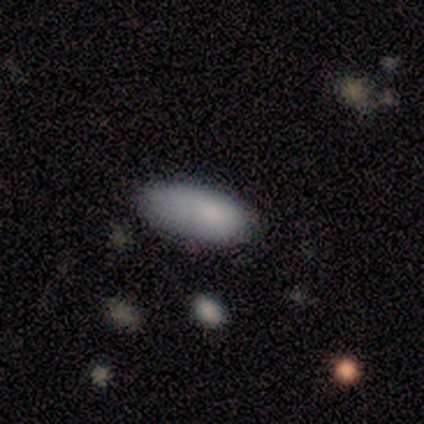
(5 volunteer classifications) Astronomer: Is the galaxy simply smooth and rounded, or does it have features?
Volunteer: smooth — 100%.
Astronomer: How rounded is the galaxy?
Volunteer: in between — 100%.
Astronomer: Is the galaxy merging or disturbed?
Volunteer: none — 40%, tied with major disturbance at 40%.